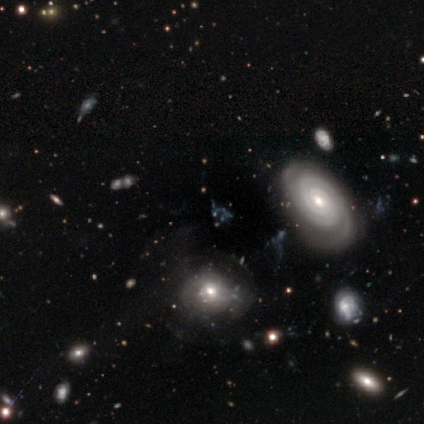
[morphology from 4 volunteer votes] This appears to be a star or artifact, not a galaxy (50%).